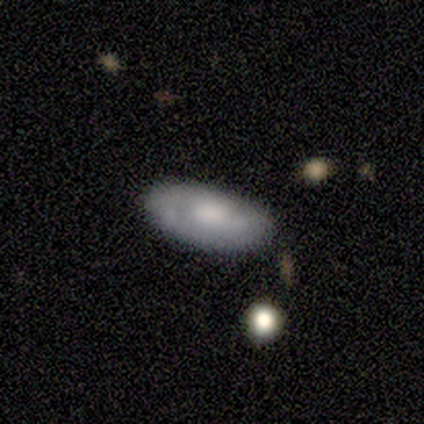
smooth_or_featured: smooth (p=1.00)
how_rounded: in between (p=1.00)
merging: none (p=0.75) [alt: minor disturbance p=0.25]